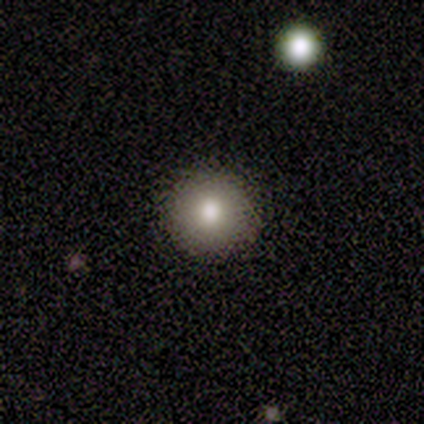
Morphology: type=smooth (60%); roundness=round (100%); merging=none (100%).